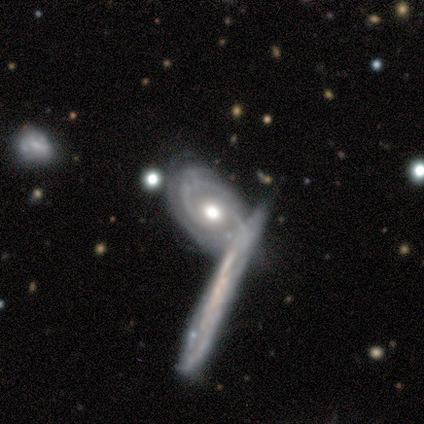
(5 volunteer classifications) Smooth or featured? featured or disk (100%)
Edge-on disk? no (100%)
Bar? no (80%)
Spiral arms? yes (100%)
Spiral winding? tight (100%)
Spiral arm count? 2 (80%)
Bulge size? moderate (60%)
Merging? none (80%)